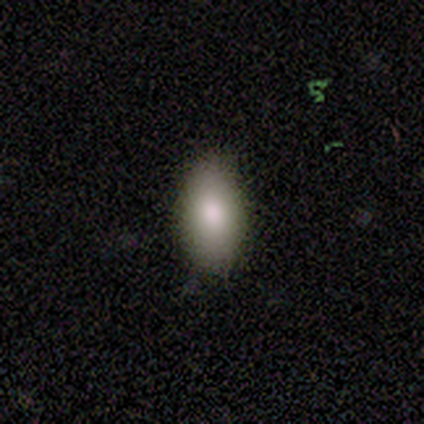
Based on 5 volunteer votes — Q: Smooth or featured?
A: smooth (100%)
Q: How rounded?
A: in between (100%)
Q: Merging?
A: none (80%); runner-up: minor disturbance (20%)